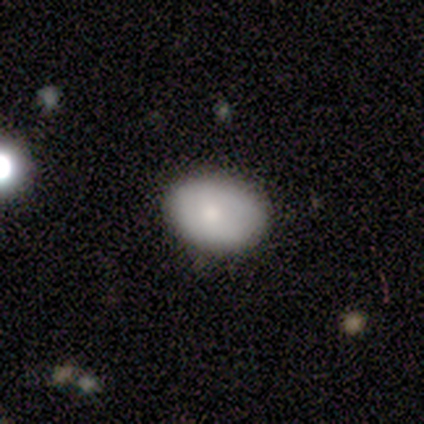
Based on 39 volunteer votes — Smooth or featured? smooth (77%)
How rounded? in between (90%)
Merging? none (81%)